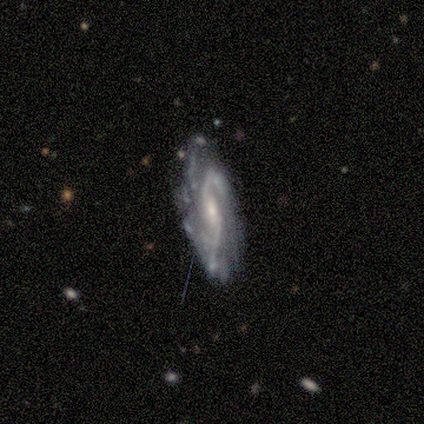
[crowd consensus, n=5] Morphology: type=featured or disk (80%); edge-on=no (100%); bar=no (50%); spiral arms=yes (100%); winding=medium (75%); arm count=2 (75%); bulge=small (75%); merging=none (75%).